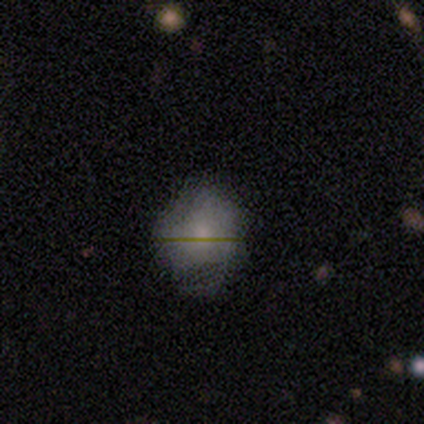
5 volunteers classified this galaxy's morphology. A smooth galaxy with no disk features (60%) that is round (100%). Merging: none (75%).